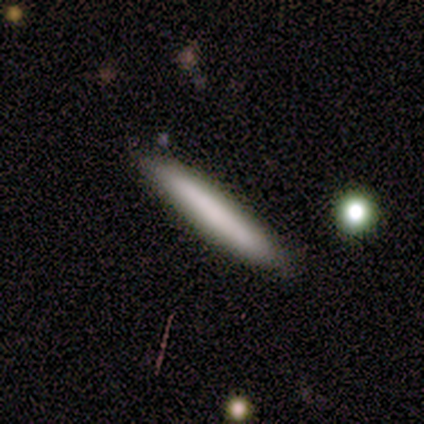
Smooth or featured? 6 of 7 (86%) said smooth. How rounded? 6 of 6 (100%) said cigar-shaped. Merging? 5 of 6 (83%) said none.